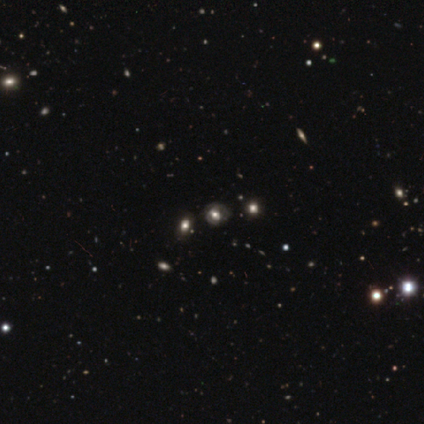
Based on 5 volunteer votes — This is likely a smooth galaxy (60%). How rounded: likely round (67%). Merging: clearly none (100%).